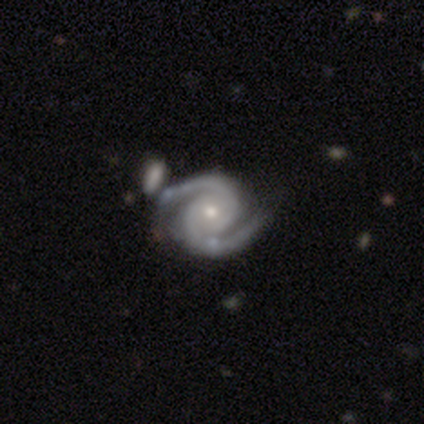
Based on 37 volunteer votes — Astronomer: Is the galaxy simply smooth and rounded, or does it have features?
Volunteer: featured or disk — 86%.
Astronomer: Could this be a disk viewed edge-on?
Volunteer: no — 97%.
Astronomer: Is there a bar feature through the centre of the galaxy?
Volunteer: no — 77%.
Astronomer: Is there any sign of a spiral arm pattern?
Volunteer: yes — 100%.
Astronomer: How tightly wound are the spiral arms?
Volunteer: tight — 48%, tied with medium at 48%.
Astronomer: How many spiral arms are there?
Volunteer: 2 — 97%.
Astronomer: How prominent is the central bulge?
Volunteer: small — 55% (runner-up: moderate, 45%).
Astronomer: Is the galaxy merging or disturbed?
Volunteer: none — 65%.